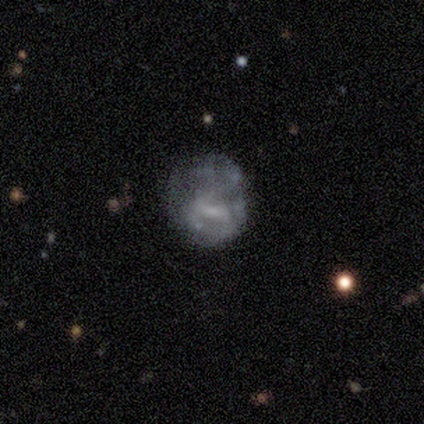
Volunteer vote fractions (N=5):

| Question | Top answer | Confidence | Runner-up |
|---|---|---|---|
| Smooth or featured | featured or disk | 80% | star or artifact (20%) |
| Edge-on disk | no | 100% | — |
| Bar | strong | 50% | tied: no (50%) |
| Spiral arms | no | 100% | — |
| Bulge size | small | 75% | none (25%) |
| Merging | minor disturbance | 50% | none (25%) |